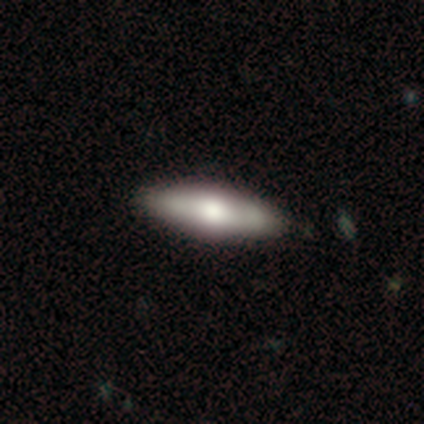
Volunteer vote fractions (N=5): Smooth or featured? 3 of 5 (60%) said smooth. How rounded? 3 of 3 (100%) said cigar-shaped. Merging? 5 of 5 (100%) said none.